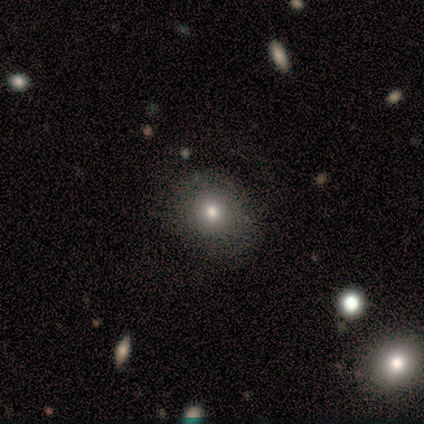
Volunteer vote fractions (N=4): Smooth or featured: smooth — 75% (star or artifact — 25%)
How rounded: round — 100%
Merging: none — 100%